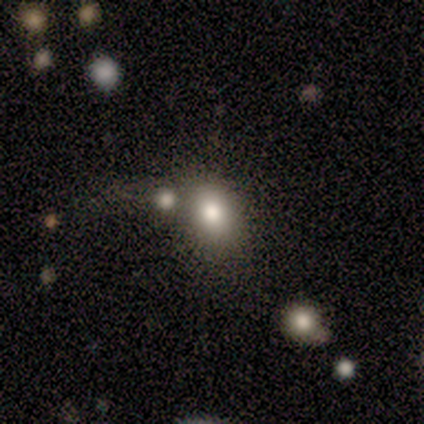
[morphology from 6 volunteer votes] smooth_or_featured: smooth (p=0.83) [alt: star or artifact p=0.17]
how_rounded: round (p=0.60) [alt: in between p=0.40]
merging: none (p=0.60) [alt: minor disturbance p=0.20]